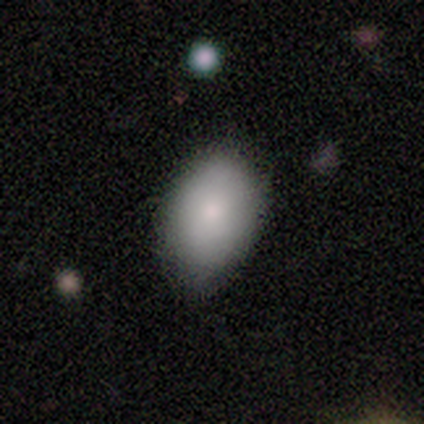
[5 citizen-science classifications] Q: Smooth or featured?
A: smooth (100%)
Q: How rounded?
A: in between (80%); runner-up: round (20%)
Q: Merging?
A: none (60%); runner-up: minor disturbance (40%)